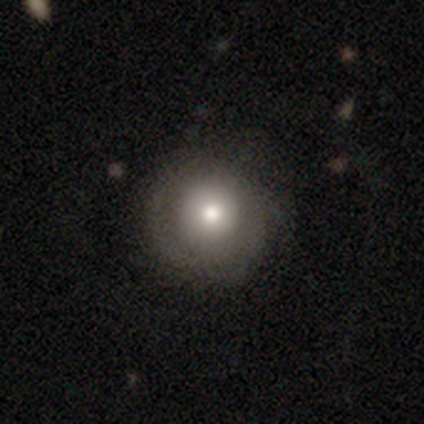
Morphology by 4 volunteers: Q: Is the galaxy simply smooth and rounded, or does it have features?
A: smooth — 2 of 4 (50%).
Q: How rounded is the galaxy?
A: round — 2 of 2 (100%).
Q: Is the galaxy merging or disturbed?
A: minor disturbance — 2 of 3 (67%).